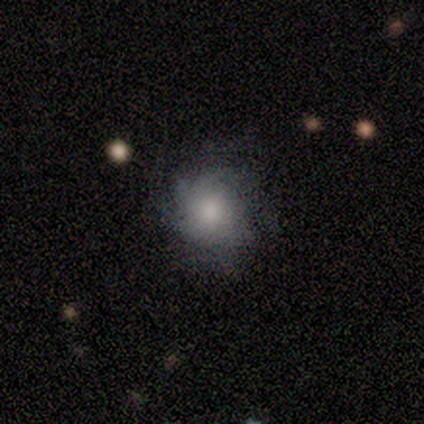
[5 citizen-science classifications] A featured or disk galaxy (80%) with a weak bar (50%, tied with no), medium (50%) spiral arms (100%) and a moderate central bulge (50%).

Vote fractions:
- Smooth or featured? featured or disk: 80% / smooth: 20% / star or artifact: 0%
- Edge-on disk? no: 100% / yes: 0%
- Bar? weak: 50% (tied) / no: 50% (tied) / strong: 0%
- Spiral arms? yes: 100% / no: 0%
- Spiral winding? medium: 50% / tight: 25% / loose: 25%
- Spiral arm count? can't tell: 50% / 1: 25% / 4: 25% / 2: 0% / 3: 0% / more than 4: 0%
- Bulge size? moderate: 50% / large: 25% / none: 25% / dominant: 0% / small: 0%
- Merging? none: 60% / minor disturbance: 40% / major disturbance: 0% / merger: 0%